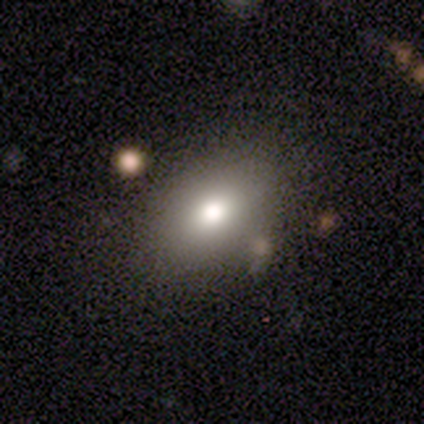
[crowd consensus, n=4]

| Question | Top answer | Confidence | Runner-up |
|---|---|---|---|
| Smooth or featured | smooth | 100% | — |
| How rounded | in between | 75% | round (25%) |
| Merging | none | 75% | minor disturbance (25%) |